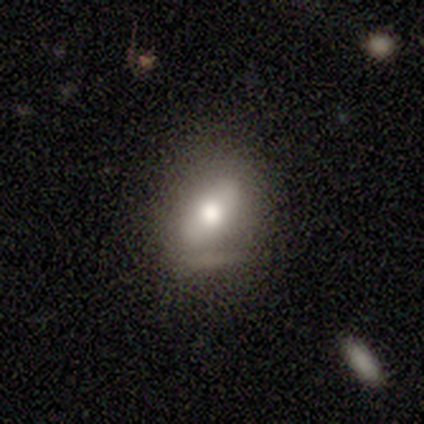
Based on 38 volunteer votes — Smooth or featured: smooth — 61% (featured or disk — 29%)
How rounded: in between — 83% (round — 13%)
Merging: none — 65% (minor disturbance — 24%)